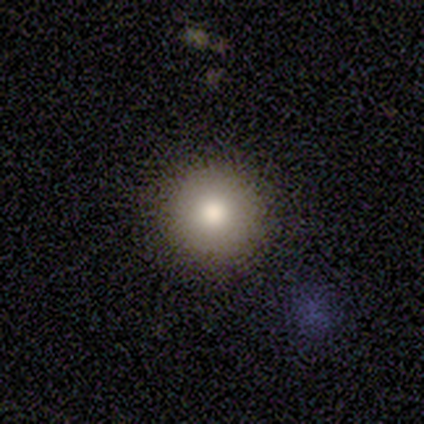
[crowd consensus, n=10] A smooth galaxy with no disk features (90%) that is round (100%).

Vote fractions:
- Smooth or featured? smooth: 90% / featured or disk: 10% / star or artifact: 0%
- How rounded? round: 100% / in between: 0% / cigar-shaped: 0%
- Merging? none: 90% / minor disturbance: 10% / major disturbance: 0% / merger: 0%